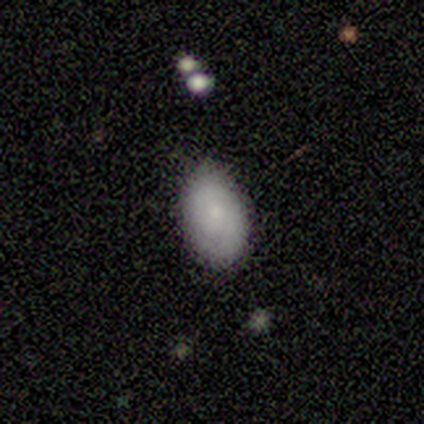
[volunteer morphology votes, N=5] Smooth or featured? 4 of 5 (80%) said smooth. How rounded? 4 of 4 (100%) said in between. Merging? 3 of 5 (60%) said none.